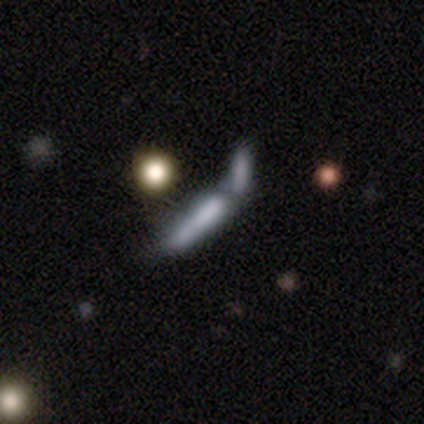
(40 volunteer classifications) smooth 62%, featured or disk 28%, star or artifact 10%. Down the decision tree: how rounded — cigar-shaped (76%); merging — merger (50%).